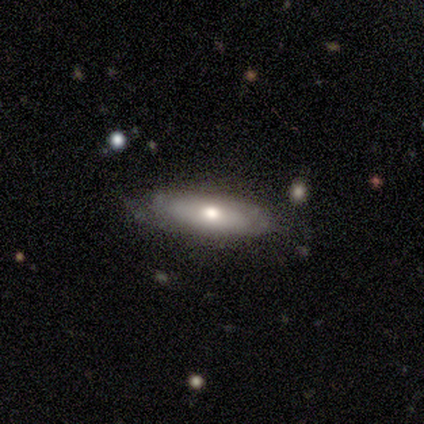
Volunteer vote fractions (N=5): Smooth or featured?
  - smooth: 60% *
  - featured or disk: 40%
  - star or artifact: 0%
How rounded?
  - in between: 67% *
  - cigar-shaped: 33%
  - round: 0%
Merging?
  - none: 60% *
  - minor disturbance: 40%
  - major disturbance: 0%
  - merger: 0%